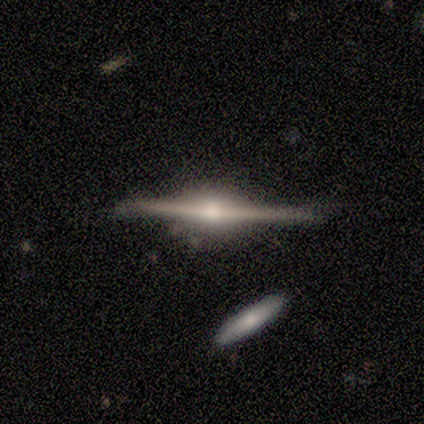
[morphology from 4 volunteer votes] A featured or disk galaxy (100%) viewed edge-on (100%) with a rounded central bulge (100%). Merging: none (100%).